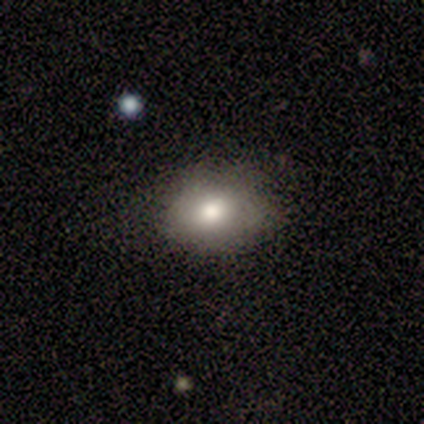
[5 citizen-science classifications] Smooth or featured: smooth — 80% (star or artifact — 20%)
How rounded: in between — 75% (round — 25%)
Merging: none — 75% (minor disturbance — 25%)